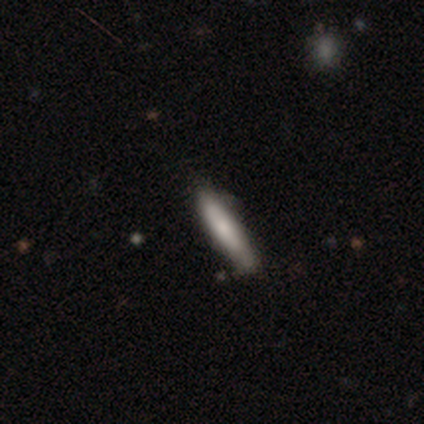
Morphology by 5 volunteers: This is likely a featured or disk galaxy (60%). It is clearly viewed edge-on (100%). Edge-on bulge: likely none (67%). Merging: clearly none (100%).